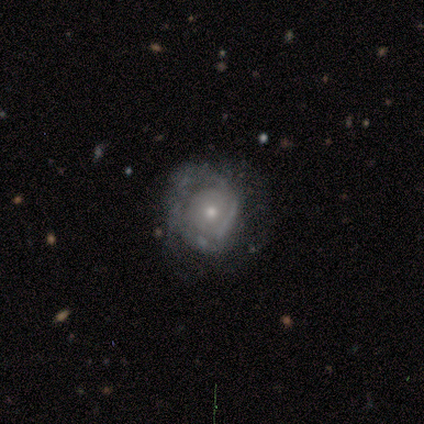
Smooth or featured? 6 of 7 (86%) said featured or disk. Edge-on disk? 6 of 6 (100%) said no. Bar? 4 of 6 (67%) said no. Spiral arms? 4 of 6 (67%) said yes. Spiral winding? 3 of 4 (75%) said tight. Spiral arm count? 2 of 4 (50%) said can't tell. Bulge size? 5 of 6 (83%) said small. Merging? 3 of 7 (43%, tied with major disturbance) said none.